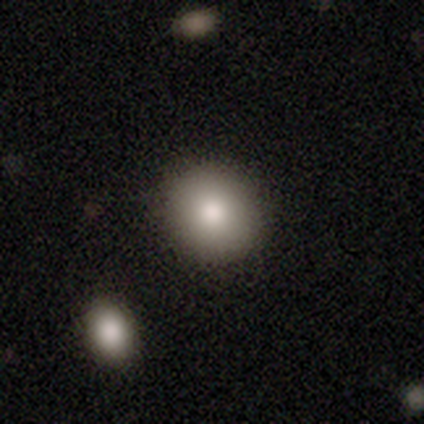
smooth-or-featured: smooth: 80% | featured or disk: 20% | star or artifact: 0%
  how-rounded: round: 100% | in between: 0% | cigar-shaped: 0%
  merging: none: 100% | minor disturbance: 0% | major disturbance: 0% | merger: 0%